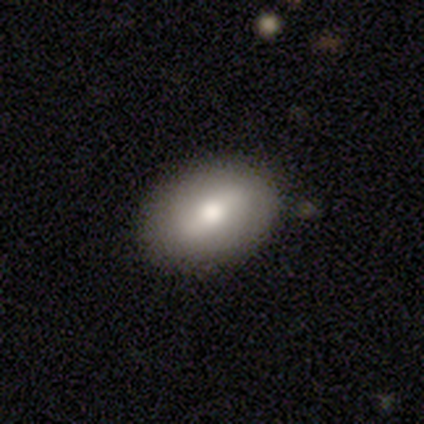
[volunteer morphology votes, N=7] Volunteers were most divided on "smooth or featured": smooth: 57%, featured or disk: 43%, star or artifact: 0%. More confident: merging — none (100%); how rounded — in between (75%).